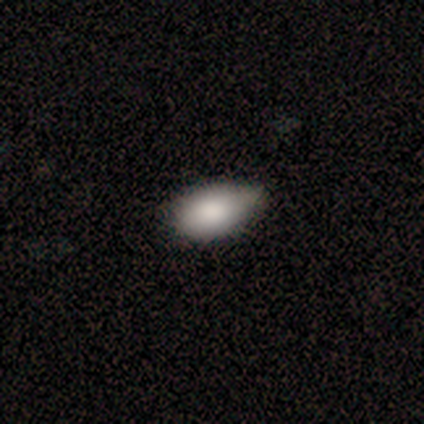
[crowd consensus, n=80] Morphology: type=smooth (92%); roundness=in between (93%); merging=minor disturbance (30%).